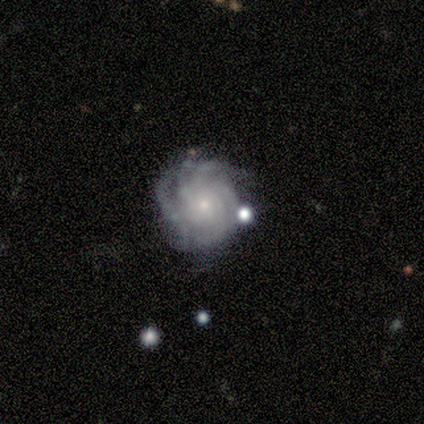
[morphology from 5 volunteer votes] This is clearly a featured or disk galaxy (100%). It is clearly not viewed edge-on (100%). Bar: clearly no (80%). Spiral arm pattern: clearly yes (100%). Spiral arm count: clearly more than 4 (80%). Spiral winding: clearly tight (80%). Central bulge: clearly small (80%). Merging: clearly none (100%).